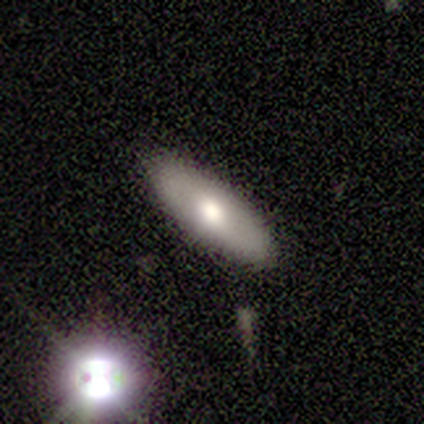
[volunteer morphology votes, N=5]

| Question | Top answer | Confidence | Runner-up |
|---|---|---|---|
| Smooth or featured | smooth | 80% | star or artifact (20%) |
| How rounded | in between | 75% | cigar-shaped (25%) |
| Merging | none | 75% | minor disturbance (25%) |